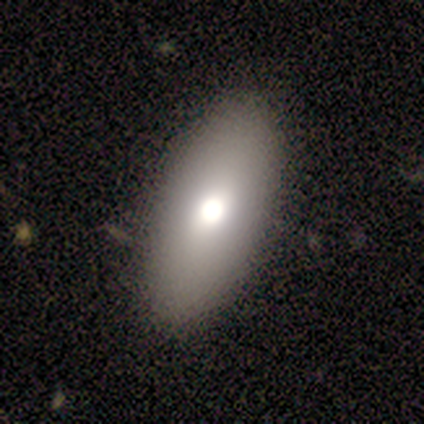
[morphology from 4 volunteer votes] Smooth or featured? smooth (100%)
How rounded? in between (100%)
Merging? none (100%)